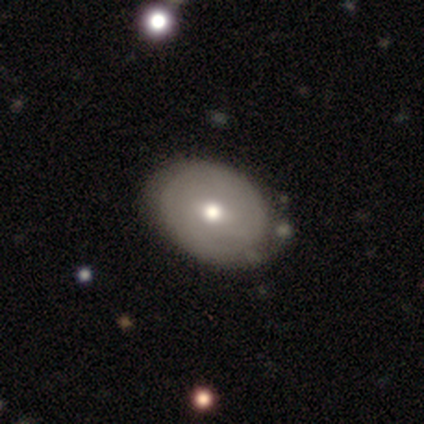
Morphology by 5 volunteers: Smooth or featured? smooth (60%)
How rounded? in between (100%)
Merging? none (60%)